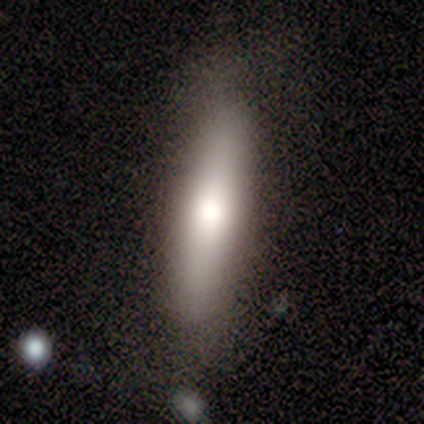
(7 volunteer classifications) This appears to be a smooth galaxy with no disk features (71%) that is cigar-shaped (60%). Merging: none (57%).